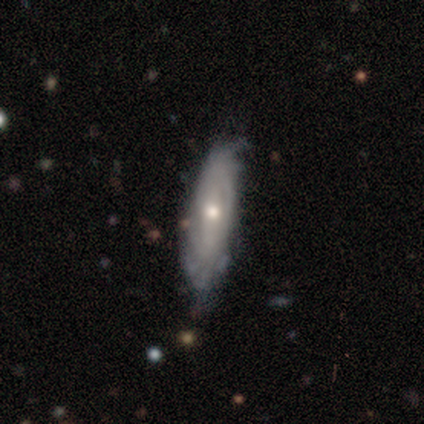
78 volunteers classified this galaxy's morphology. This appears to be a featured or disk galaxy (72%) with no bar (69%), tight (57%) spiral arms (89%) and a moderate central bulge (64%). Merging: none (31%).